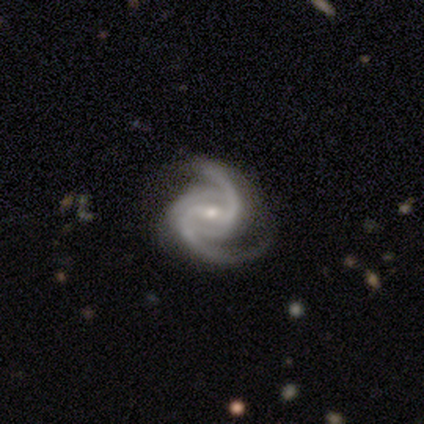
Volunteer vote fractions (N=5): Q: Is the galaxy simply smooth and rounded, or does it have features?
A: featured or disk — 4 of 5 (80%).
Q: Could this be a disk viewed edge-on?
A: no — 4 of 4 (100%).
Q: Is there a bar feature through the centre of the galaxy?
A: weak — 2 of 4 (50%).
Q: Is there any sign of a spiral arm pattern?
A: yes — 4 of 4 (100%).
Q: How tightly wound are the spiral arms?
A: medium — 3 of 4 (75%).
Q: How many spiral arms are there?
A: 2 — 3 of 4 (75%).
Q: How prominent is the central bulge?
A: small — 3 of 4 (75%).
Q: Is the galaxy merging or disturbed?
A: none — 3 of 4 (75%).